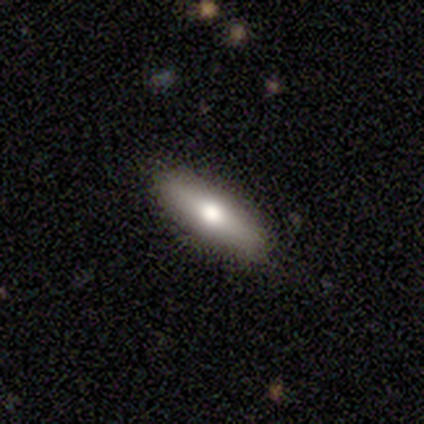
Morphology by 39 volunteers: This appears to be a smooth galaxy with no disk features (72%) that is in between round and cigar-shaped (50%, tied with cigar-shaped). Merging: none (92%).